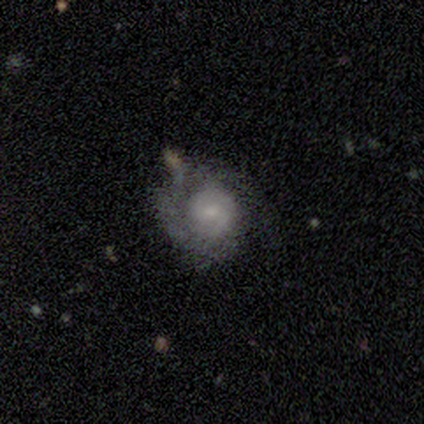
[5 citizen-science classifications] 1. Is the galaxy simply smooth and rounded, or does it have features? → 100% featured or disk, 0% smooth, 0% star or artifact.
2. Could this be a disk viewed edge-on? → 80% no, 20% yes.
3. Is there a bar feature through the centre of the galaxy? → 50% weak (tied), 50% no (tied), 0% strong.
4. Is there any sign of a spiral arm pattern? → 100% yes, 0% no.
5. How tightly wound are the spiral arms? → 100% tight, 0% medium, 0% loose.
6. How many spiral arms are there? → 50% 2, 25% 1, 25% can't tell, 0% 3, 0% 4, 0% more than 4.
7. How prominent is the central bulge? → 50% large, 25% small, 25% none, 0% dominant, 0% moderate.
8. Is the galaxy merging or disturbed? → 40% none (tied), 40% minor disturbance (tied), 20% major disturbance, 0% merger.